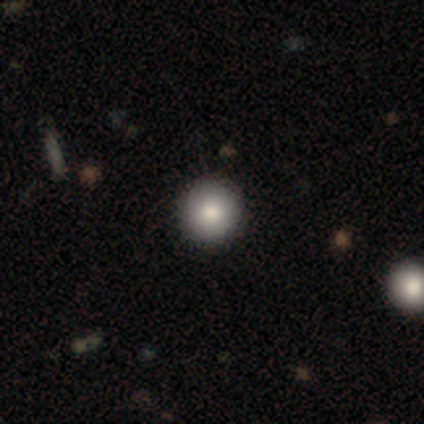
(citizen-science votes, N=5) Smooth or featured? 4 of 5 (80%) said smooth. How rounded? 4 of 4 (100%) said round. Merging? 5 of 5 (100%) said none.